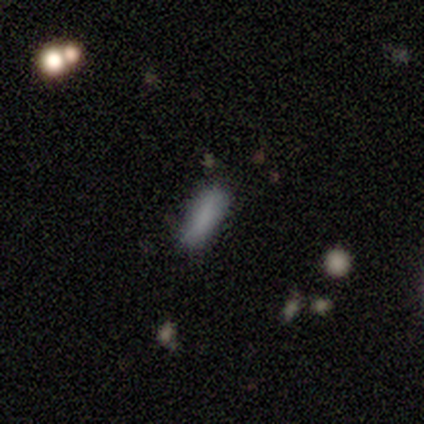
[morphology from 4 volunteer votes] type=smooth (75%); roundness=cigar-shaped (67%); merging=none (75%).